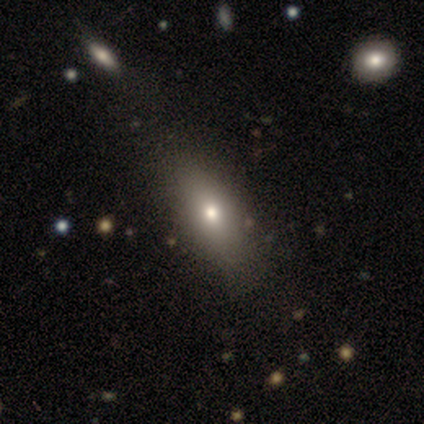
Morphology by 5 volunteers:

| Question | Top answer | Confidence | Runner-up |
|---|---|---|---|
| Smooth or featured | smooth | 60% | featured or disk (40%) |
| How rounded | in between | 100% | — |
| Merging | none | 80% | major disturbance (20%) |